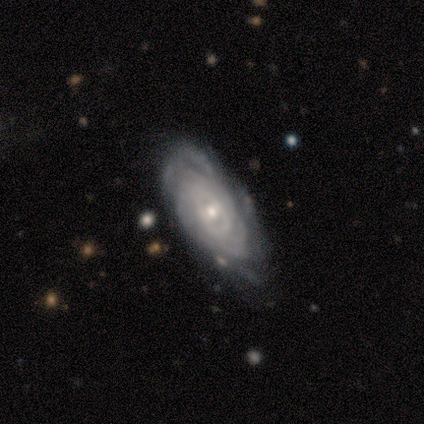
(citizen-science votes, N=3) smooth-or-featured: featured or disk: 100% | smooth: 0% | star or artifact: 0%
  disk-edge-on: no: 100% | yes: 0%
    bar: weak: 67% | no: 33% | strong: 0%
    has-spiral-arms: yes: 100% | no: 0%
      spiral-winding: tight: 67% | loose: 33% | medium: 0%
      spiral-arm-count: 2: 33% (tied) | more than 4: 33% (tied) | can't tell: 33% (tied) | 1: 0% | 3: 0% | 4: 0%
    bulge-size: moderate: 67% | small: 33% | dominant: 0% | large: 0% | none: 0%
  merging: none: 67% | minor disturbance: 33% | major disturbance: 0% | merger: 0%